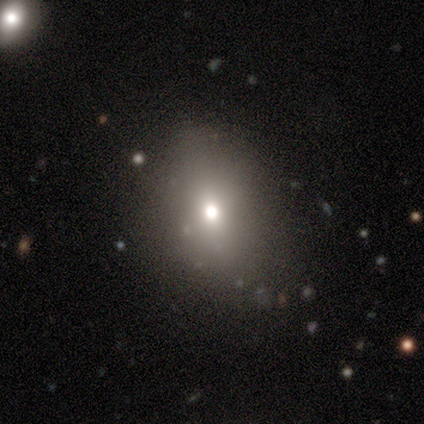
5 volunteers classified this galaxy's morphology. Smooth or featured? 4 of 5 (80%) said smooth. How rounded? 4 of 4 (100%) said in between. Merging? 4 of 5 (80%) said none.